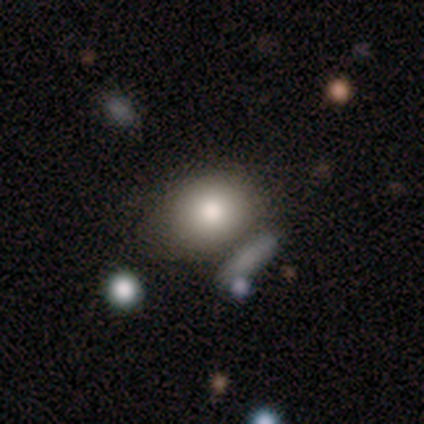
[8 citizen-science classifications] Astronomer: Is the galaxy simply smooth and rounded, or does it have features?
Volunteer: smooth — 75%.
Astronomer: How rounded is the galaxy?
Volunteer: round — 100%.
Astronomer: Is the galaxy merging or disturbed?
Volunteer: none — 43% (runner-up: minor disturbance, 29%).